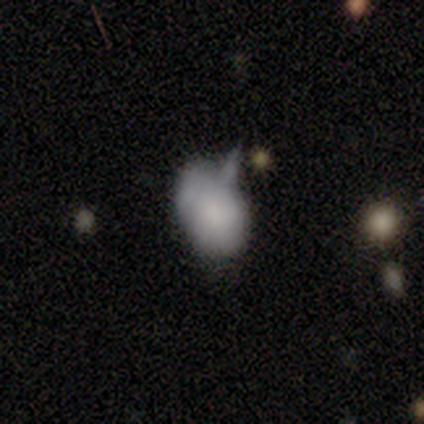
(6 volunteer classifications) Q: Smooth or featured?
A: smooth (83%); runner-up: featured or disk (17%)
Q: How rounded?
A: in between (100%)
Q: Merging?
A: none (33%); tied with: minor disturbance (33%); major disturbance (33%)